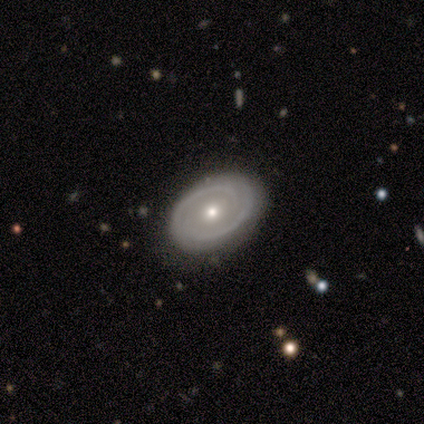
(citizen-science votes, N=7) Morphology: type=featured or disk (71%); edge-on=no (100%); bar=no (100%); spiral arms=yes (100%); winding=tight (60%); arm count=2 (80%); bulge=small (60%); merging=none (83%).